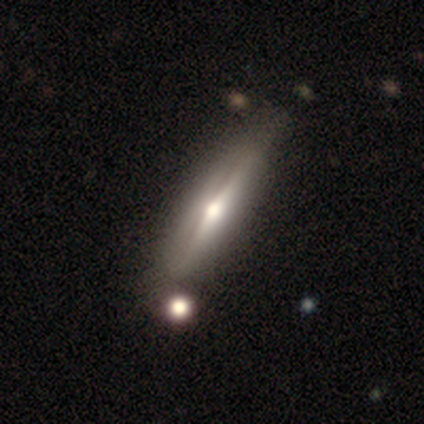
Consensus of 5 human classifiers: This is clearly a featured or disk galaxy (80%). It is clearly viewed edge-on (100%). Edge-on bulge: clearly rounded (100%). Merging: clearly none (100%).